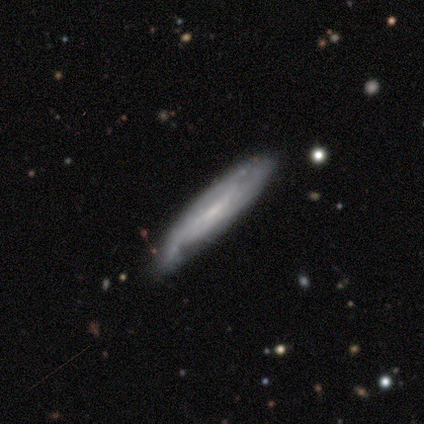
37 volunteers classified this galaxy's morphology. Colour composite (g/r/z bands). It shows a featured or disk galaxy (57%) viewed edge-on (76%) with no central bulge (75%). Merging: none (82%).